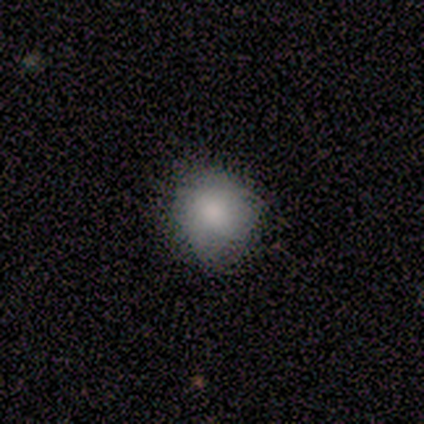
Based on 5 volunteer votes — Q: Smooth or featured?
A: smooth (100%)
Q: How rounded?
A: round (100%)
Q: Merging?
A: minor disturbance (60%); runner-up: none (40%)